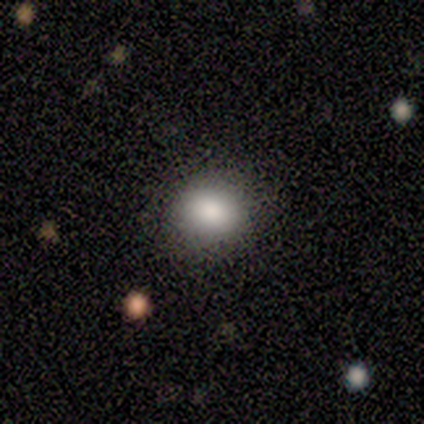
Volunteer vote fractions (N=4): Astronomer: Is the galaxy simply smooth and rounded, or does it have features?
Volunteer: smooth — 100%.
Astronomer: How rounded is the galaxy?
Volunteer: round — 100%.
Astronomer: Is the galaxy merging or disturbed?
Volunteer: none — 50%, tied with minor disturbance at 50%.